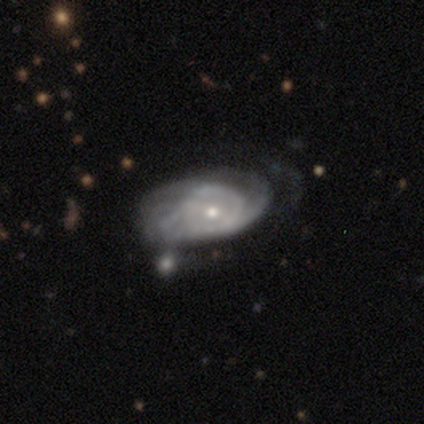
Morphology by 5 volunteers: smooth_or_featured: featured or disk (p=1.00)
disk_edge_on: no (p=0.80) [alt: yes p=0.20]
bar: no (p=0.50) [alt: strong p=0.25]
has_spiral_arms: yes (p=1.00)
spiral_winding: tight (p=0.75) [alt: medium p=0.25]
spiral_arm_count: can't tell (p=0.75) [alt: 4 p=0.25]
bulge_size: small (p=0.75) [alt: moderate p=0.25]
merging: none (p=0.60) [alt: minor disturbance p=0.20]